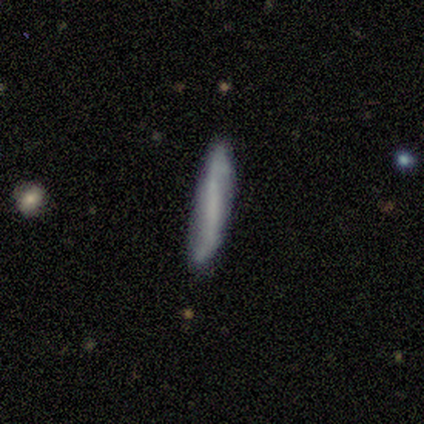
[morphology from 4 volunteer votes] smooth-or-featured: smooth: 75% | featured or disk: 25% | star or artifact: 0%
  how-rounded: cigar-shaped: 100% | round: 0% | in between: 0%
  merging: none: 50% | minor disturbance: 25% | major disturbance: 25% | merger: 0%